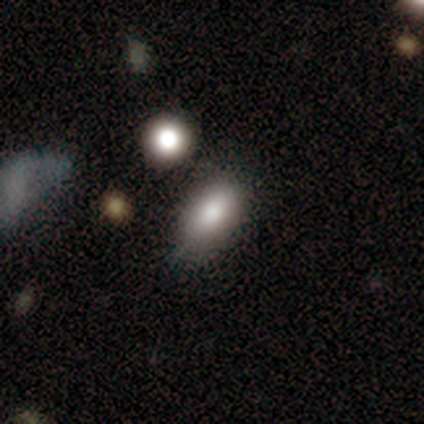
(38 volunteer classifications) Volunteers were most divided on "merging": none: 65%, minor disturbance: 18%, major disturbance: 12%, merger: 6%. More confident: how rounded — in between (93%); smooth or featured — smooth (76%).